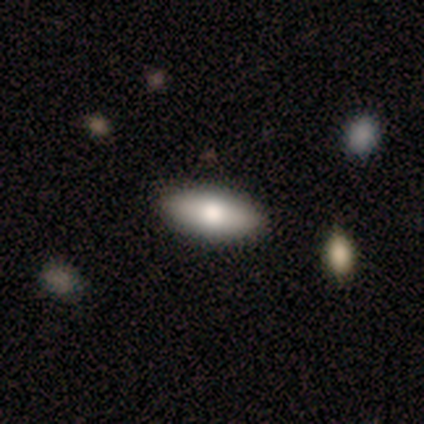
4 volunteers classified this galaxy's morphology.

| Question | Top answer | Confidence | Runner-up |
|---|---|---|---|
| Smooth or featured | smooth | 100% | — |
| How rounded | in between | 75% | cigar-shaped (25%) |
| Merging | none | 75% | minor disturbance (25%) |